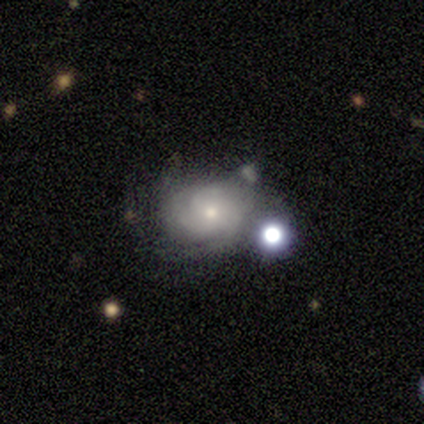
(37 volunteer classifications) Q: Smooth or featured?
A: featured or disk (73%); runner-up: smooth (22%)
Q: Edge-on disk?
A: no (96%); runner-up: yes (4%)
Q: Bar?
A: no (85%); runner-up: weak (12%)
Q: Spiral arms?
A: yes (85%); runner-up: no (15%)
Q: Spiral winding?
A: tight (50%); runner-up: medium (45%)
Q: Spiral arm count?
A: 3 (45%); runner-up: can't tell (32%)
Q: Bulge size?
A: small (54%); runner-up: moderate (42%)
Q: Merging?
A: minor disturbance (37%); runner-up: none (29%)